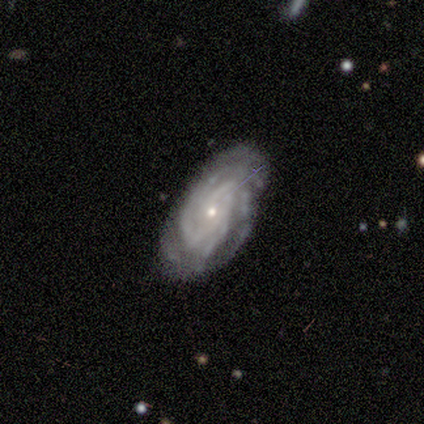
featured or disk 100%, smooth 0%, star or artifact 0%. Down the decision tree: edge-on disk — no (83%); bar — no (80%); spiral arms — yes (100%); spiral arm count — 3 (60%); spiral winding — tight (60%); bulge size — small (80%); merging — none (67%).